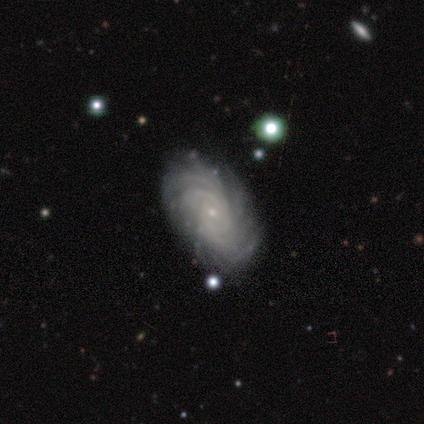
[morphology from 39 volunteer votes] This appears to be a featured or disk galaxy (87%) with no bar (82%), more than 4 (48%) tight (85%) spiral arms (100%) and a small central bulge (82%). Merging: none (83%).